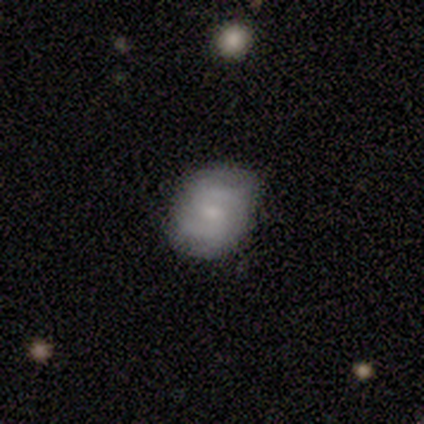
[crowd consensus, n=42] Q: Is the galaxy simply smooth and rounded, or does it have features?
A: featured or disk — 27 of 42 (64%).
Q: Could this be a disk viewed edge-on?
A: no — 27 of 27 (100%).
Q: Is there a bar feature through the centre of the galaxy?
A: weak — 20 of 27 (74%).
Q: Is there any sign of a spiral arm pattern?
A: yes — 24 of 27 (89%).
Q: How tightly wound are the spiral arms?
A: medium — 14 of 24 (58%).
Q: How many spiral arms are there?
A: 2 — 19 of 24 (79%).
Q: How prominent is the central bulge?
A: moderate — 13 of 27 (48%).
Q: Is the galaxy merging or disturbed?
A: none — 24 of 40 (60%).